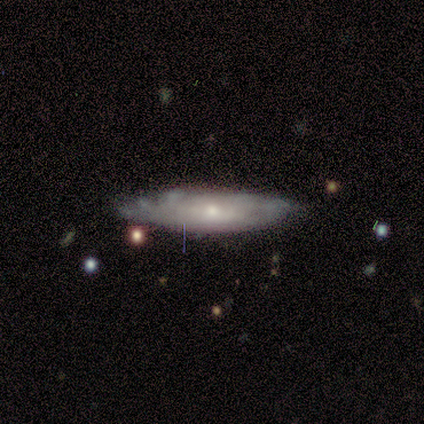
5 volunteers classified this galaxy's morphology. A featured or disk galaxy (60%) viewed edge-on (67%) with no central bulge (50%, tied with rounded).

Vote fractions:
- Smooth or featured? featured or disk: 60% / smooth: 40% / star or artifact: 0%
- Edge-on disk? yes: 67% / no: 33%
- Edge-on bulge? none: 50% (tied) / rounded: 50% (tied) / boxy: 0%
- Merging? none: 80% / minor disturbance: 20% / major disturbance: 0% / merger: 0%